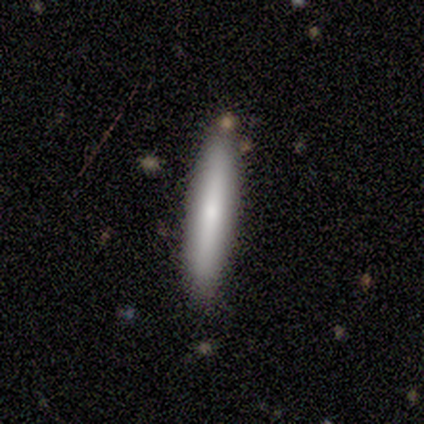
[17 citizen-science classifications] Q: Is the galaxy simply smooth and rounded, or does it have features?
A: smooth — 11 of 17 (65%).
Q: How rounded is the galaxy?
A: cigar-shaped — 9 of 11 (82%).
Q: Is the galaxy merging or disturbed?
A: none — 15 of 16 (94%).